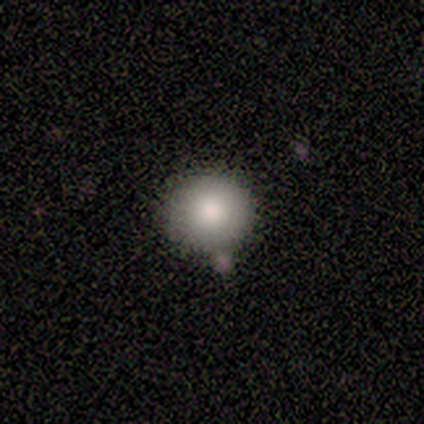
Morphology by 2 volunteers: type=smooth (100%); roundness=round (100%); merging=none (50%, tied with merger).